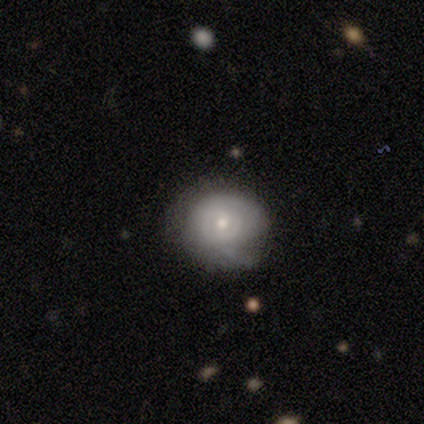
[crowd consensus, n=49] Q: Smooth or featured?
A: smooth (55%); runner-up: featured or disk (41%)
Q: How rounded?
A: round (96%); runner-up: in between (4%)
Q: Merging?
A: none (68%); runner-up: minor disturbance (28%)